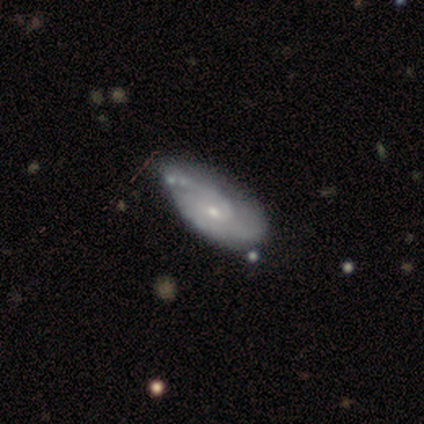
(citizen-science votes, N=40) Morphology: type=featured or disk (82%); edge-on=no (97%); bar=no (66%); spiral arms=yes (97%); winding=tight (42%, tied with medium); arm count=2 (58%); bulge=small (75%); merging=none (41%).